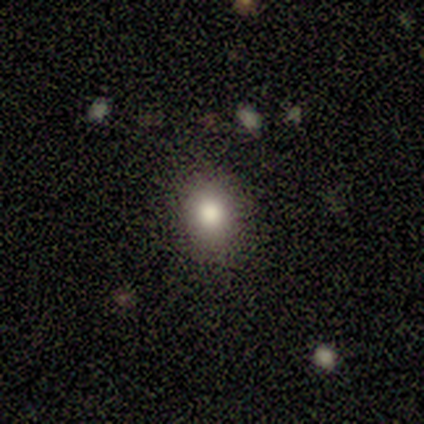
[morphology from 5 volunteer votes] type=smooth (40%, tied with featured or disk); roundness=round (100%); merging=none (75%).